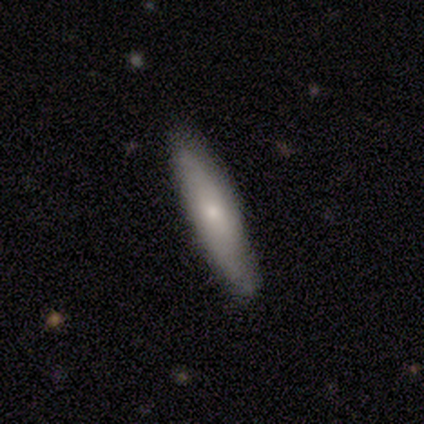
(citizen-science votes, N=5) smooth_or_featured: smooth (p=0.60) [alt: featured or disk p=0.20]
how_rounded: cigar-shaped (p=1.00)
merging: none (p=0.75) [alt: minor disturbance p=0.25]